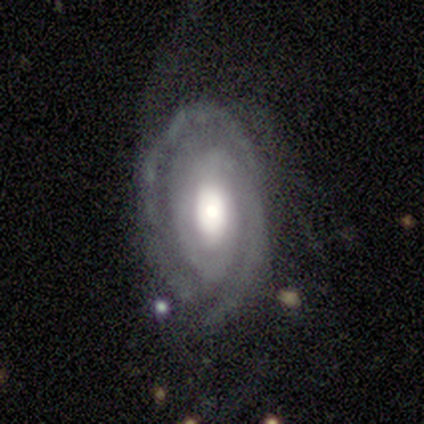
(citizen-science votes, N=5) Smooth or featured? 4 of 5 (80%) said featured or disk. Edge-on disk? 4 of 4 (100%) said no. Bar? 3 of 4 (75%) said no. Spiral arms? 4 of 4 (100%) said yes. Spiral winding? 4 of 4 (100%) said tight. Spiral arm count? 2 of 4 (50%) said 2. Bulge size? 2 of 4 (50%, tied with moderate) said large. Merging? 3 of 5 (60%) said none.